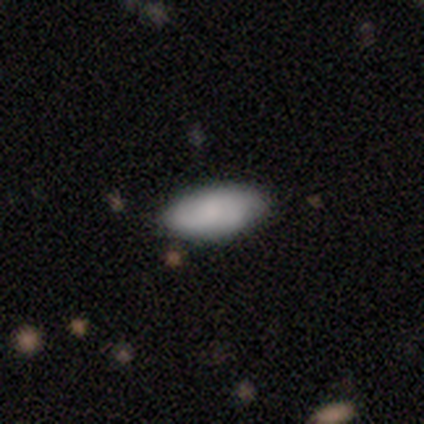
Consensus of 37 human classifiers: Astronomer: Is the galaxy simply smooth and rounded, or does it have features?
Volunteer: smooth — 81%.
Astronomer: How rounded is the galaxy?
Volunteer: in between — 100%.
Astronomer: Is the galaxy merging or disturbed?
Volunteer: none — 82%.